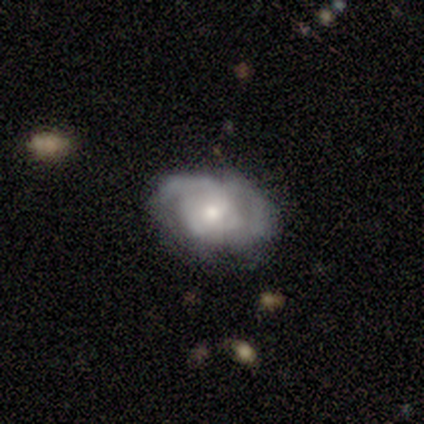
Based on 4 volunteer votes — A featured or disk galaxy (75%) with no bar (67%), 2 (100%) medium (67%) spiral arms (100%) and a small central bulge (67%).

Vote fractions:
- Smooth or featured? featured or disk: 75% / smooth: 25% / star or artifact: 0%
- Edge-on disk? no: 100% / yes: 0%
- Bar? no: 67% / weak: 33% / strong: 0%
- Spiral arms? yes: 100% / no: 0%
- Spiral winding? medium: 67% / tight: 33% / loose: 0%
- Spiral arm count? 2: 100% / 1: 0% / 3: 0% / 4: 0% / more than 4: 0% / can't tell: 0%
- Bulge size? small: 67% / moderate: 33% / dominant: 0% / large: 0% / none: 0%
- Merging? none: 50% (tied) / minor disturbance: 50% (tied) / major disturbance: 0% / merger: 0%